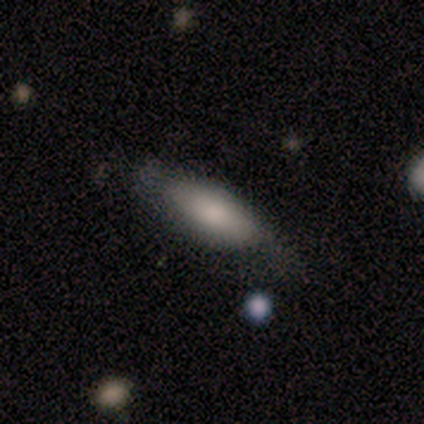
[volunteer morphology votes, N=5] type=smooth (80%); roundness=in between (100%); merging=none (40%, tied with major disturbance).